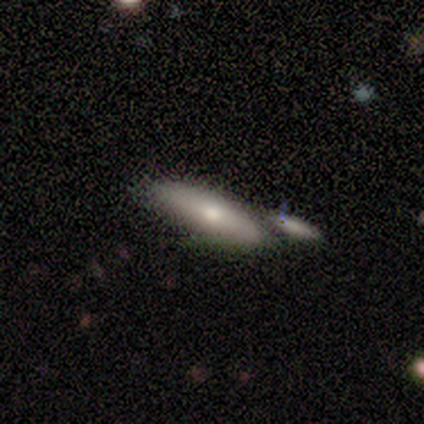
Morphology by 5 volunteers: This is clearly a smooth galaxy (100%). How rounded: likely in between (60%). Merging: clearly none (80%).